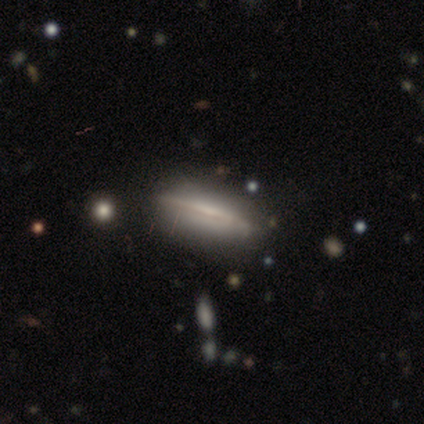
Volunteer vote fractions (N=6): smooth_or_featured: smooth (p=0.50) [tied with: featured or disk p=0.50]
how_rounded: in between (p=0.67) [alt: cigar-shaped p=0.33]
merging: none (p=0.83) [alt: minor disturbance p=0.17]